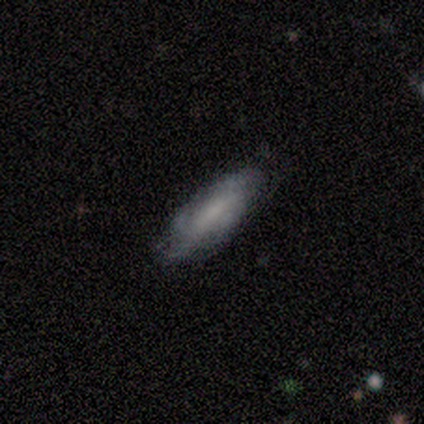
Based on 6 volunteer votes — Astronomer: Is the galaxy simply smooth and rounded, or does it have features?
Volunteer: smooth — 83%.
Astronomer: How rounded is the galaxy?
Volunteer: in between — 60% (runner-up: cigar-shaped, 40%).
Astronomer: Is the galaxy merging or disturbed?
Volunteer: none — 83%.